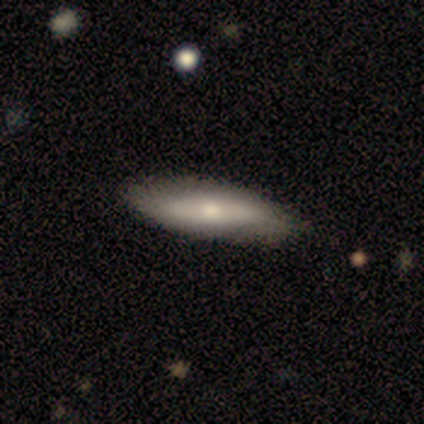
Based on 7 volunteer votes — This is possibly a smooth galaxy (57%). How rounded: likely in between (75%). Merging: likely none (67%).